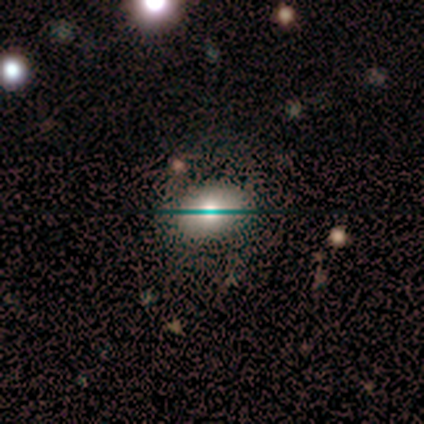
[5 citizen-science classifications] Smooth or featured? smooth (80%)
How rounded? in between (75%)
Merging? none (80%)